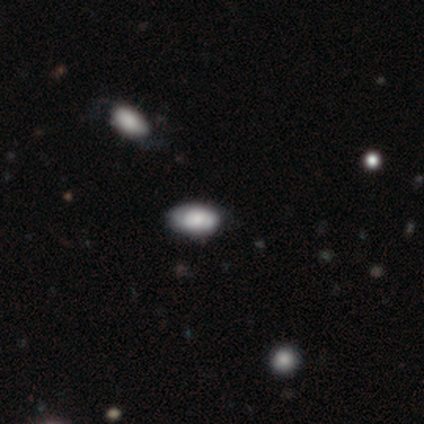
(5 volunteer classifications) Smooth or featured?
  - smooth: 80% *
  - star or artifact: 20%
  - featured or disk: 0%
How rounded?
  - in between: 100% *
  - round: 0%
  - cigar-shaped: 0%
Merging?
  - none: 75% *
  - minor disturbance: 25%
  - major disturbance: 0%
  - merger: 0%